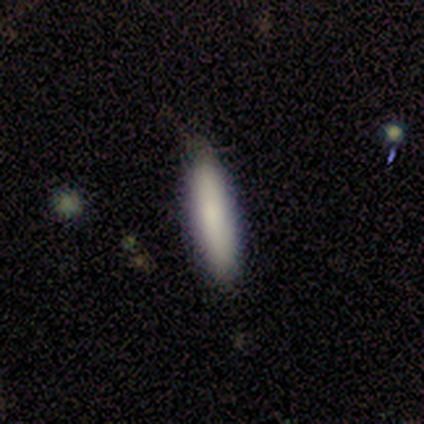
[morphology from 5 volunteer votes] Volunteers were most divided on "how rounded": cigar-shaped: 75%, in between: 25%, round: 0%. More confident: smooth or featured — smooth (80%); merging — none (75%).